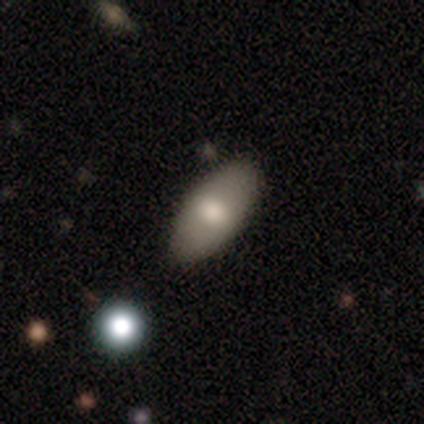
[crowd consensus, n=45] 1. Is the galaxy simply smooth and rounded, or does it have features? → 73% smooth, 24% featured or disk, 2% star or artifact.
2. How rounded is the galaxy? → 91% in between, 9% cigar-shaped, 0% round.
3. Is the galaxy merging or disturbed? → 73% none, 18% minor disturbance, 7% major disturbance, 2% merger.